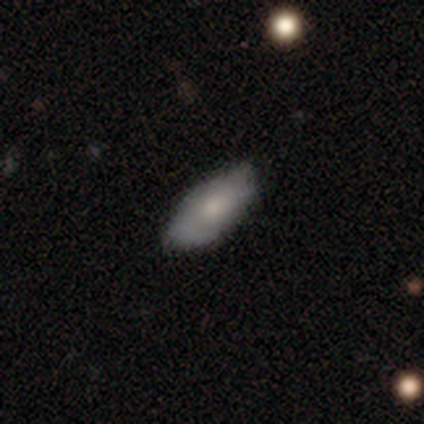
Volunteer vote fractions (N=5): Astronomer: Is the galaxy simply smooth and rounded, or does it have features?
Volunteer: smooth — 80%.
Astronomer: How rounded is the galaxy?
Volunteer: in between — 100%.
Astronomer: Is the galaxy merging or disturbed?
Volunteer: none — 60% (runner-up: minor disturbance, 40%).